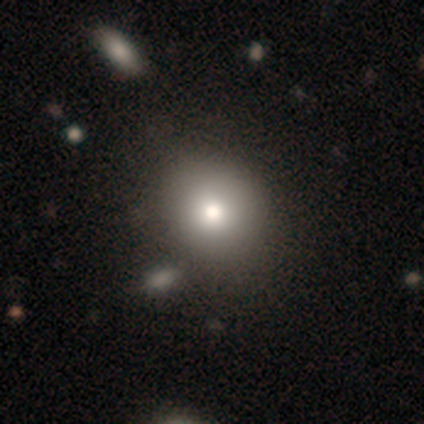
Q: Smooth or featured?
A: smooth (75%); runner-up: featured or disk (12%)
Q: How rounded?
A: round (50%); tied with: in between (50%)
Q: Merging?
A: none (57%); runner-up: minor disturbance (43%)